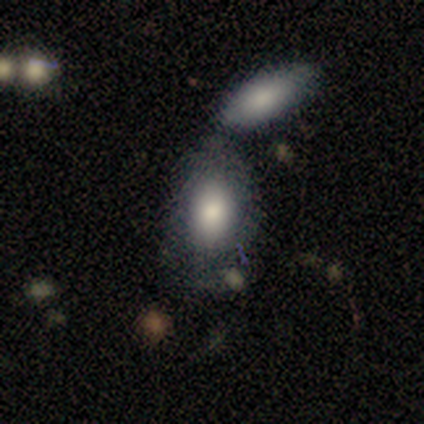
smooth-or-featured: smooth: 82% | featured or disk: 13% | star or artifact: 5%
  how-rounded: in between: 97% | round: 3% | cigar-shaped: 0%
  merging: merger: 57% | none: 24% | minor disturbance: 14% | major disturbance: 5%